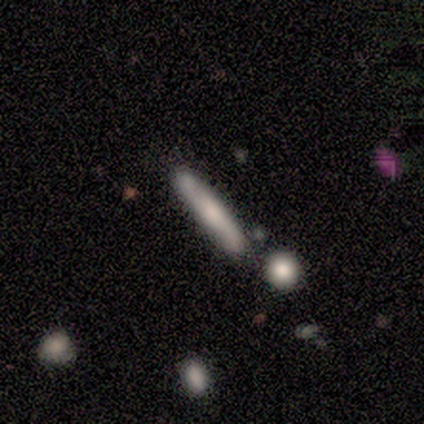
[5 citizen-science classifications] This appears to be a smooth galaxy with no disk features (80%) that is cigar-shaped (100%). Merging: none (40%, tied with minor disturbance).